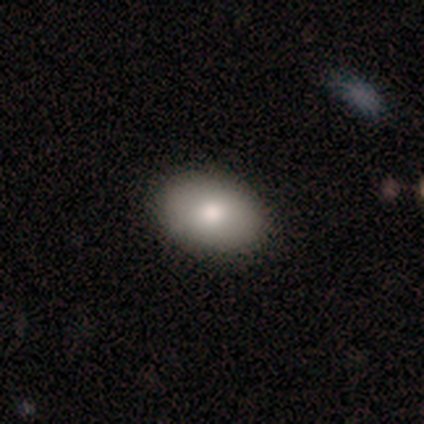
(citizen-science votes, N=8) This appears to be a smooth galaxy with no disk features (100%) that is in between round and cigar-shaped (100%). Merging: none (100%).